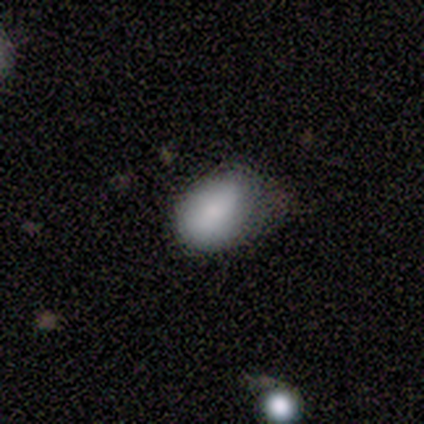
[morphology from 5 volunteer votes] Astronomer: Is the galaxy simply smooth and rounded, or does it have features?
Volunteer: smooth — 60%.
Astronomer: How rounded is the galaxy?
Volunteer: in between — 100%.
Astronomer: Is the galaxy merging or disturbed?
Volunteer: none — 50%.